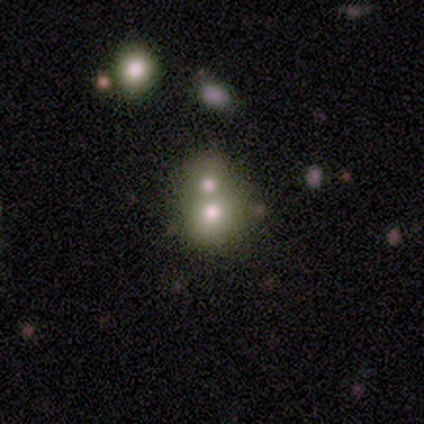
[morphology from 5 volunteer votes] Smooth or featured: smooth — 80% (featured or disk — 20%)
How rounded: round — 50% (tied with in between — 50%)
Merging: merger — 100%